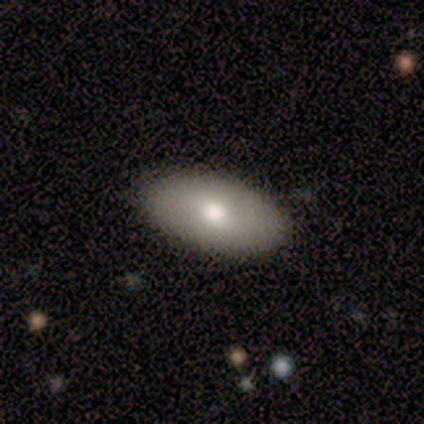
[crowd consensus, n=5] smooth 80%, featured or disk 20%, star or artifact 0%. Down the decision tree: how rounded — in between (100%); merging — none (100%).